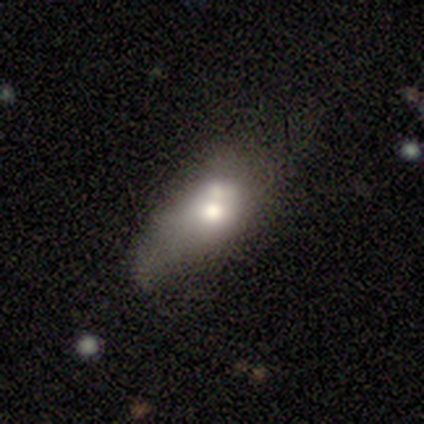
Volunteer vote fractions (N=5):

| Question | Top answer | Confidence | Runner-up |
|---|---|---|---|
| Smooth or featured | smooth | 80% | featured or disk (20%) |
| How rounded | in between | 75% | round (25%) |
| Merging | major disturbance | 40% | tied: merger (40%) |